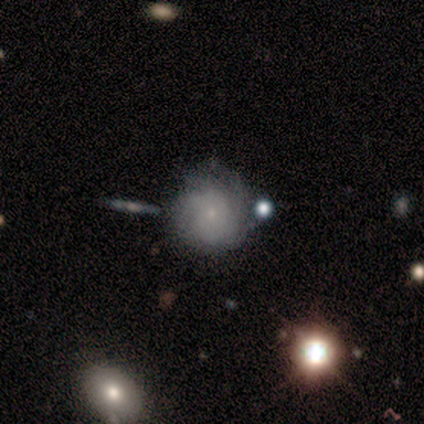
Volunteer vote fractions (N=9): smooth-or-featured: featured or disk: 56% | smooth: 44% | star or artifact: 0%
  disk-edge-on: no: 100% | yes: 0%
    bar: no: 100% | strong: 0% | weak: 0%
    has-spiral-arms: yes: 100% | no: 0%
      spiral-winding: tight: 100% | medium: 0% | loose: 0%
      spiral-arm-count: can't tell: 100% | 1: 0% | 2: 0% | 3: 0% | 4: 0% | more than 4: 0%
    bulge-size: small: 100% | dominant: 0% | large: 0% | moderate: 0% | none: 0%
  merging: none: 67% | minor disturbance: 22% | merger: 11% | major disturbance: 0%